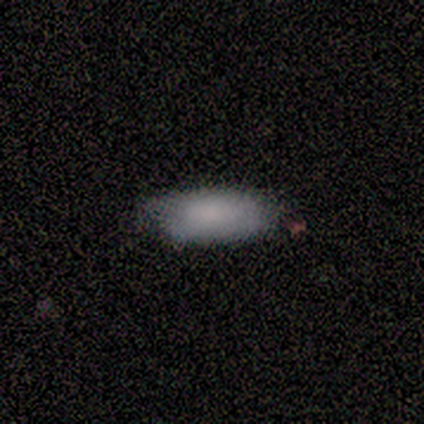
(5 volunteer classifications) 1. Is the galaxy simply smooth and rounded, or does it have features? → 60% smooth, 40% featured or disk, 0% star or artifact.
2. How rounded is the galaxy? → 67% in between, 33% cigar-shaped, 0% round.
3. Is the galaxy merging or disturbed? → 80% none, 20% minor disturbance, 0% major disturbance, 0% merger.